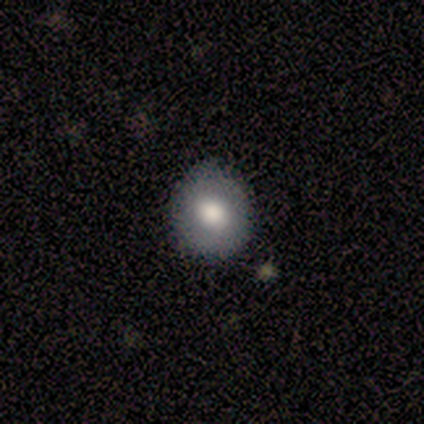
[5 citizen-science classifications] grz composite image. It shows a smooth galaxy with no disk features (80%) that is round (100%). Merging: none (100%).